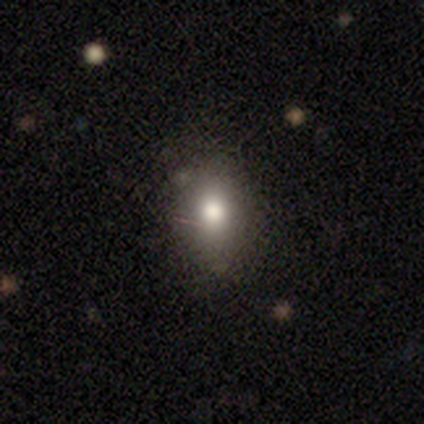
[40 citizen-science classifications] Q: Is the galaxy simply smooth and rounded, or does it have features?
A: smooth — 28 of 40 (70%).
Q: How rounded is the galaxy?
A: in between — 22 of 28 (79%).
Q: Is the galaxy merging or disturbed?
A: none — 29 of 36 (81%).